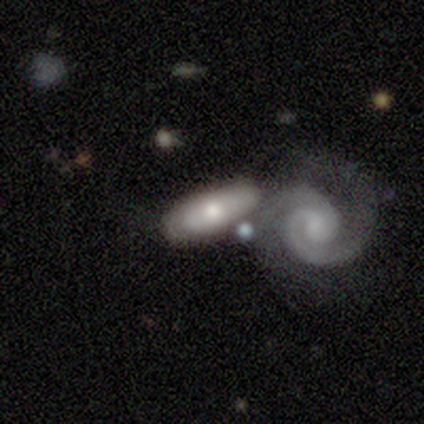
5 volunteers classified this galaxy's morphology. A featured or disk galaxy (100%) with no bar (100%), no spiral arms (67%) and a moderate central bulge (67%). Merging: none (60%).